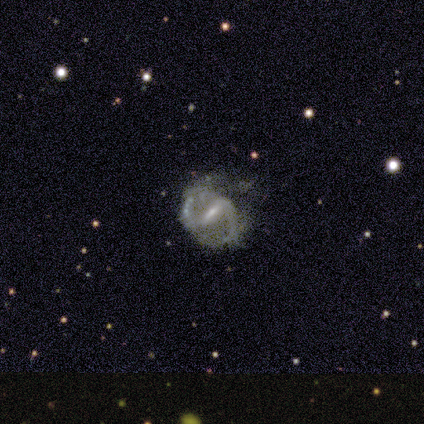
smooth_or_featured: featured or disk (p=1.00)
disk_edge_on: no (p=1.00)
bar: strong (p=1.00)
has_spiral_arms: yes (p=1.00)
spiral_winding: loose (p=1.00)
spiral_arm_count: 2 (p=1.00)
bulge_size: small (p=1.00)
merging: minor disturbance (p=1.00)